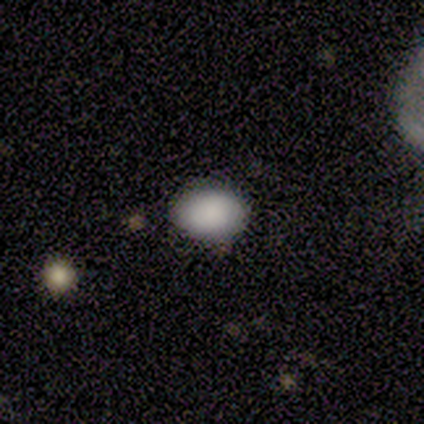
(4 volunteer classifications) This appears to be a smooth galaxy with no disk features (75%) that is in between round and cigar-shaped (67%). Merging: none (100%).